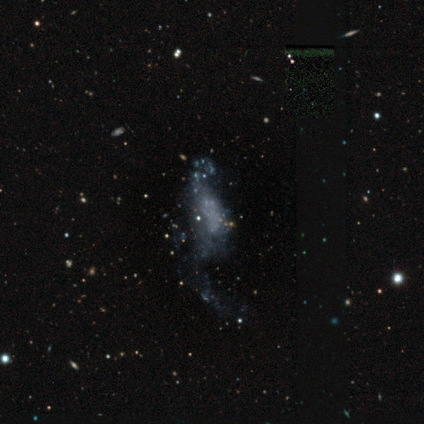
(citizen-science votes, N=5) smooth-or-featured: featured or disk: 60% | star or artifact: 40% | smooth: 0%
  disk-edge-on: no: 100% | yes: 0%
    bar: no: 67% | weak: 33% | strong: 0%
    has-spiral-arms: no: 67% | yes: 33%
    bulge-size: none: 67% | small: 33% | dominant: 0% | large: 0% | moderate: 0%
  merging: none: 67% | minor disturbance: 33% | major disturbance: 0% | merger: 0%